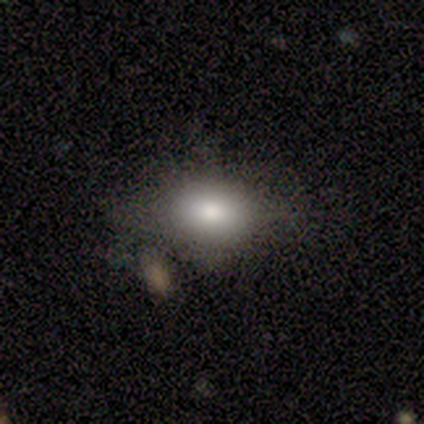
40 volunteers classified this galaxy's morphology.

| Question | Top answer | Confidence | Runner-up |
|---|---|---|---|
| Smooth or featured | smooth | 80% | star or artifact (15%) |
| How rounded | in between | 81% | round (19%) |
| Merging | none | 65% | minor disturbance (32%) |